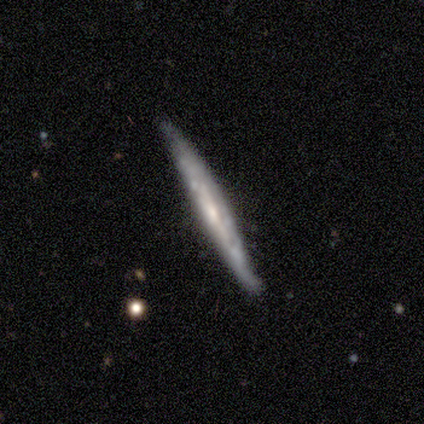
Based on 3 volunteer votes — This is likely a featured or disk galaxy (67%). It is possibly viewed edge-on (50%, tied with no). Edge-on bulge: clearly boxy (100%). Merging: clearly none (100%).